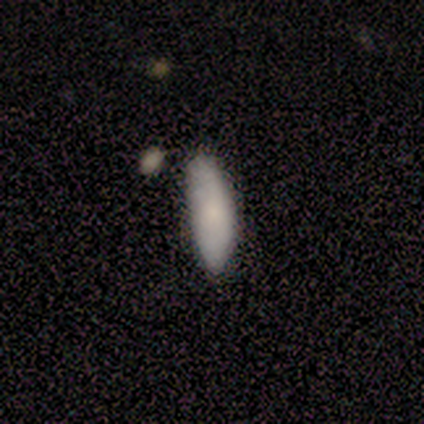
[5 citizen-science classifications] Smooth or featured: smooth — 80% (featured or disk — 20%)
How rounded: in between — 50% (tied with cigar-shaped — 50%)
Merging: none — 80% (minor disturbance — 20%)